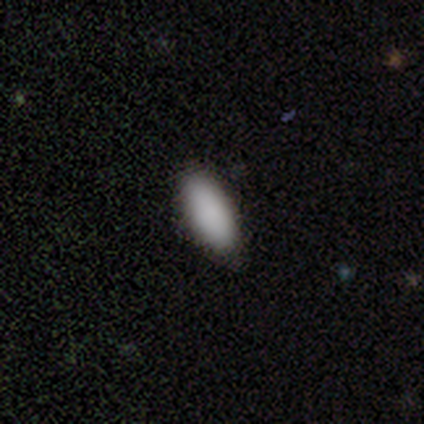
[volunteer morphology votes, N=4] smooth_or_featured: smooth (p=1.00)
how_rounded: in between (p=1.00)
merging: none (p=1.00)